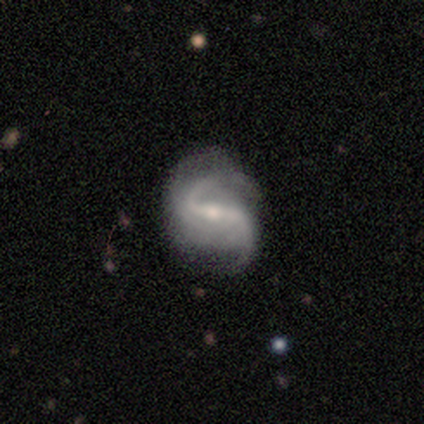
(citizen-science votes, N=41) featured or disk 93%, star or artifact 5%, smooth 2%. Down the decision tree: edge-on disk — no (92%); bar — strong (60%); spiral arms — yes (100%); spiral arm count — 2 (89%); spiral winding — loose (63%); bulge size — moderate (54%); merging — none (54%).